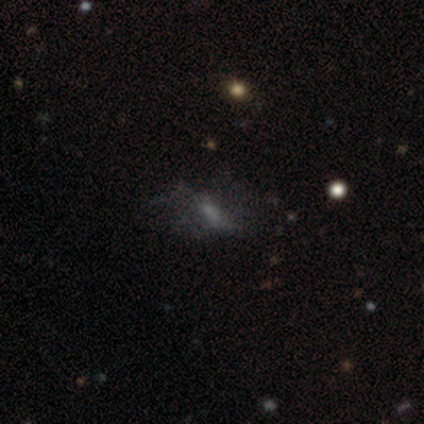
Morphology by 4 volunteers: smooth 50% (tied), featured or disk 50% (tied), star or artifact 0%. Down the decision tree: how rounded — in between (100%); merging — none (50%, tied with major disturbance).